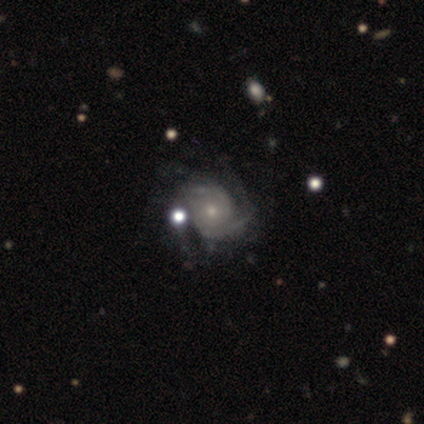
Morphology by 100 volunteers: type=featured or disk (88%); edge-on=no (100%); bar=no (85%); spiral arms=yes (95%); winding=tight (69%); arm count=2 (54%); bulge=small (61%); merging=none (59%).